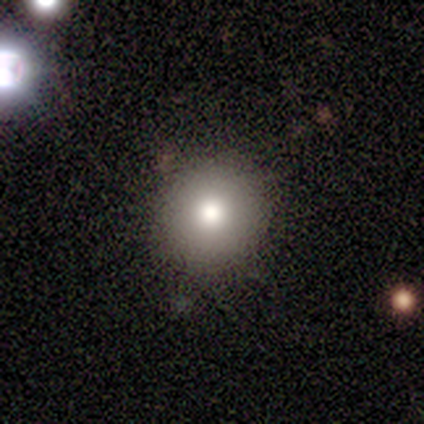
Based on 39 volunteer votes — Q: Smooth or featured?
A: smooth (79%); runner-up: featured or disk (10%)
Q: How rounded?
A: round (90%); runner-up: in between (10%)
Q: Merging?
A: none (91%); runner-up: minor disturbance (9%)